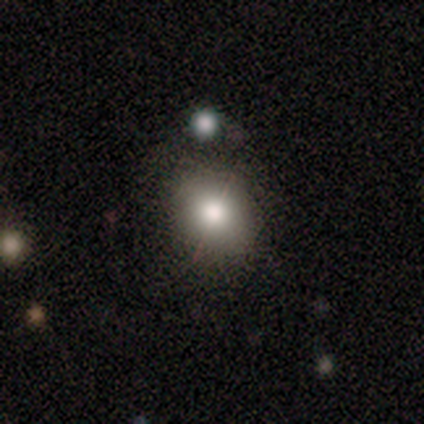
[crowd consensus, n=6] A smooth galaxy with no disk features (67%) that is round (50%, tied with in between).

Vote fractions:
- Smooth or featured? smooth: 67% / star or artifact: 33% / featured or disk: 0%
- How rounded? round: 50% (tied) / in between: 50% (tied) / cigar-shaped: 0%
- Merging? none: 100% / minor disturbance: 0% / major disturbance: 0% / merger: 0%